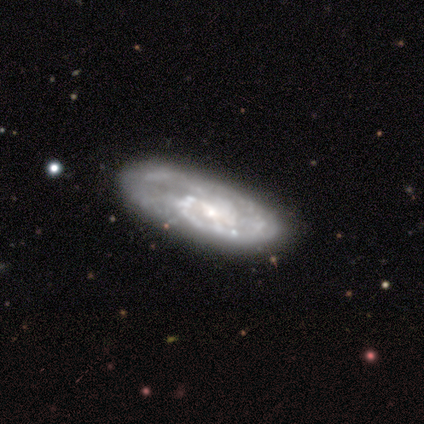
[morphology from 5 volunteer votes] A featured or disk galaxy (100%) with no bar (60%), 2 (50%) medium (75%) spiral arms (80%) and a small central bulge (60%).

Vote fractions:
- Smooth or featured? featured or disk: 100% / smooth: 0% / star or artifact: 0%
- Edge-on disk? no: 100% / yes: 0%
- Bar? no: 60% / weak: 40% / strong: 0%
- Spiral arms? yes: 80% / no: 20%
- Spiral winding? medium: 75% / tight: 25% / loose: 0%
- Spiral arm count? 2: 50% / 3: 25% / can't tell: 25% / 1: 0% / 4: 0% / more than 4: 0%
- Bulge size? small: 60% / dominant: 20% / moderate: 20% / large: 0% / none: 0%
- Merging? minor disturbance: 40% (tied) / merger: 40% (tied) / none: 20% / major disturbance: 0%